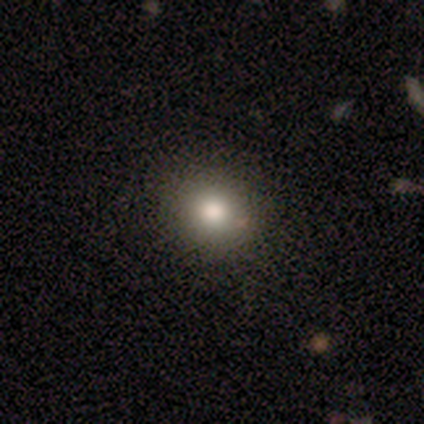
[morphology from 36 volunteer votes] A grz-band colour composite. It shows a smooth galaxy with no disk features (83%) that is round (80%). Merging: none (84%).